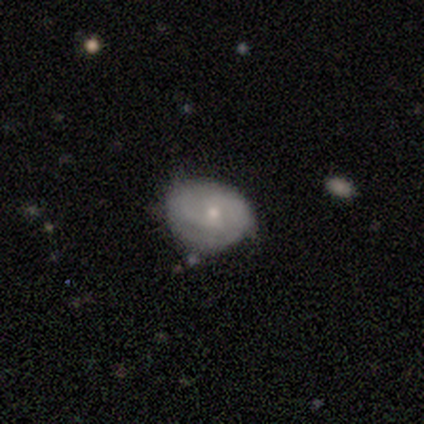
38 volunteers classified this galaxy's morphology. smooth_or_featured: featured or disk (p=0.58) [alt: smooth p=0.26]
disk_edge_on: no (p=0.95) [alt: yes p=0.05]
bar: no (p=0.76) [alt: weak p=0.24]
has_spiral_arms: yes (p=0.57) [alt: no p=0.43]
spiral_winding: tight (p=0.50) [alt: medium p=0.33]
spiral_arm_count: 2 (p=0.42) [tied with: can't tell p=0.42]
bulge_size: small (p=0.81) [alt: moderate p=0.19]
merging: none (p=0.59) [alt: minor disturbance p=0.25]